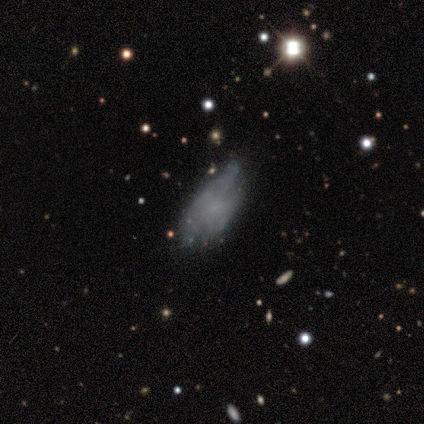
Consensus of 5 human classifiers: A smooth galaxy with no disk features (40%, tied with featured or disk) that is in between round and cigar-shaped (100%).

Vote fractions:
- Smooth or featured? smooth: 40% (tied) / featured or disk: 40% (tied) / star or artifact: 20%
- How rounded? in between: 100% / round: 0% / cigar-shaped: 0%
- Merging? minor disturbance: 50% / none: 25% / major disturbance: 25% / merger: 0%